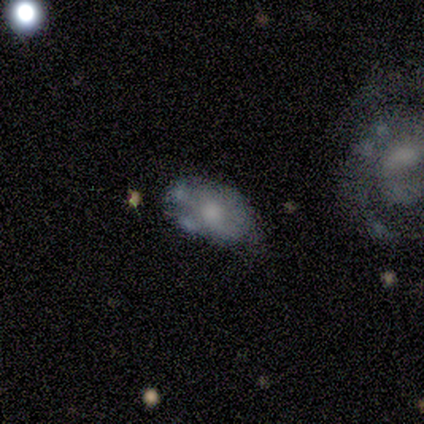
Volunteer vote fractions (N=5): Q: Smooth or featured?
A: featured or disk (80%); runner-up: smooth (20%)
Q: Edge-on disk?
A: no (100%)
Q: Bar?
A: no (100%)
Q: Spiral arms?
A: no (75%); runner-up: yes (25%)
Q: Bulge size?
A: moderate (50%); runner-up: large (25%)
Q: Merging?
A: merger (40%); runner-up: none (20%)